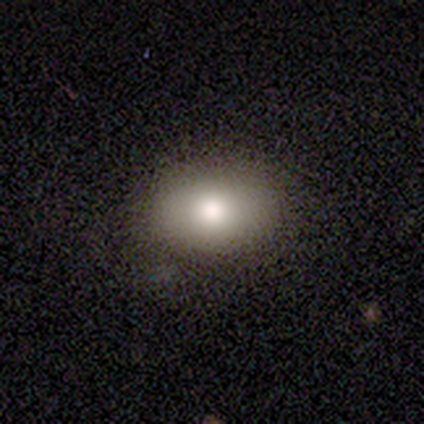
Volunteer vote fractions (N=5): Consensus on every question: smooth or featured — smooth (100%); how rounded — in between (100%); merging — none (100%).